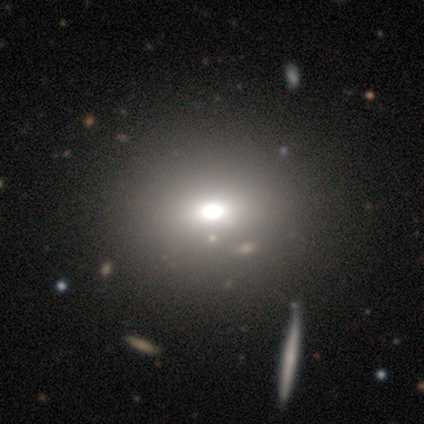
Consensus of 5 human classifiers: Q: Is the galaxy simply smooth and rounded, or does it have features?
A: smooth — 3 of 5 (60%).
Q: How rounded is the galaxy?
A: in between — 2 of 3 (67%).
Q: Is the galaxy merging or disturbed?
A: none — 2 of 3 (67%).